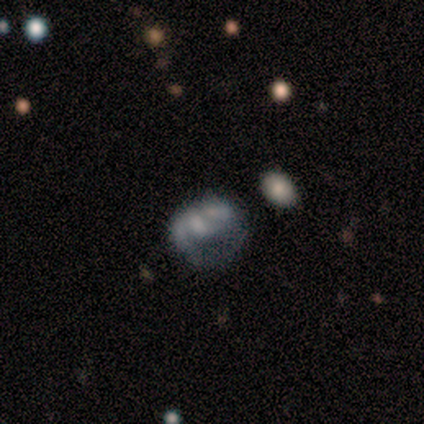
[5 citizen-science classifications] This appears to be a featured or disk galaxy (80%) with a weak bar (75%), 1 (50%) loose (75%) spiral arms (100%) and a small central bulge (50%, tied with none). Merging: minor disturbance (40%, tied with merger).